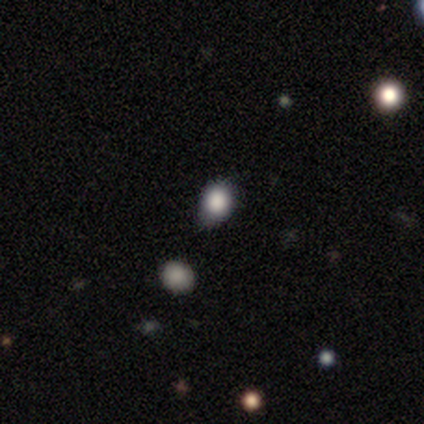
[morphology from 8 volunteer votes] This appears to be a smooth galaxy with no disk features (75%) that is round (50%, tied with in between). Merging: none (50%).